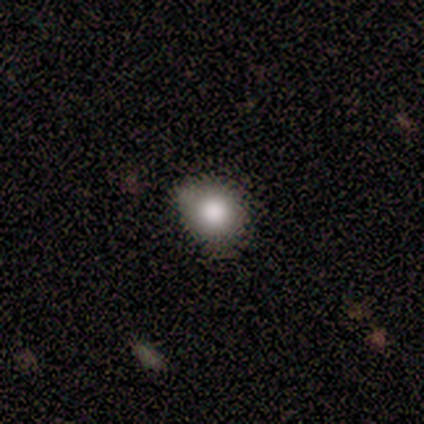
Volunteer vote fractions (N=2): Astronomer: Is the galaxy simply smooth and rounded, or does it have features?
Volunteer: smooth — 100%.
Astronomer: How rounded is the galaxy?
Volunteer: round — 50%, tied with in between at 50%.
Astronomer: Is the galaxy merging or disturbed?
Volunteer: none — 50%, tied with minor disturbance at 50%.